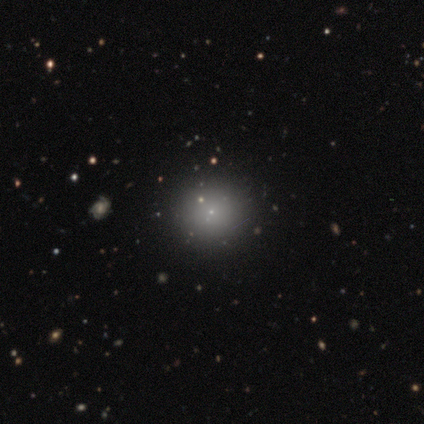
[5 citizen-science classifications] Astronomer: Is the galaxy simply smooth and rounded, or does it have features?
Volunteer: smooth — 80%.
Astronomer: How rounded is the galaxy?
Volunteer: round — 100%.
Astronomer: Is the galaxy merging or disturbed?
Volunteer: none — 75%.